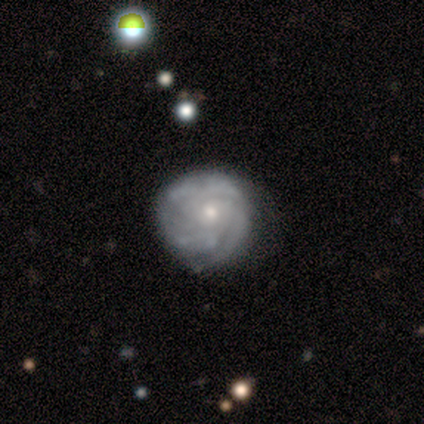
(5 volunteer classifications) smooth 60%, featured or disk 40%, star or artifact 0%. Down the decision tree: how rounded — round (67%); merging — none (60%).